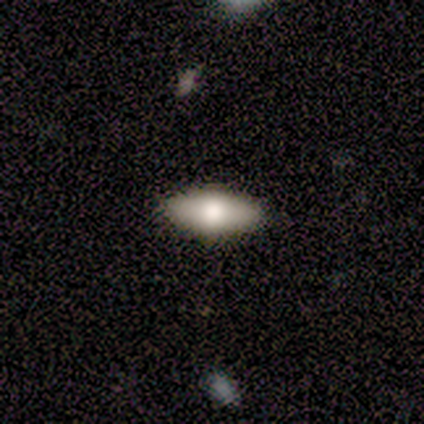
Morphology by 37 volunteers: Smooth or featured?
  - smooth: 76% *
  - featured or disk: 19%
  - star or artifact: 5%
How rounded?
  - in between: 75% *
  - cigar-shaped: 21%
  - round: 4%
Merging?
  - none: 94% *
  - minor disturbance: 3%
  - major disturbance: 3%
  - merger: 0%